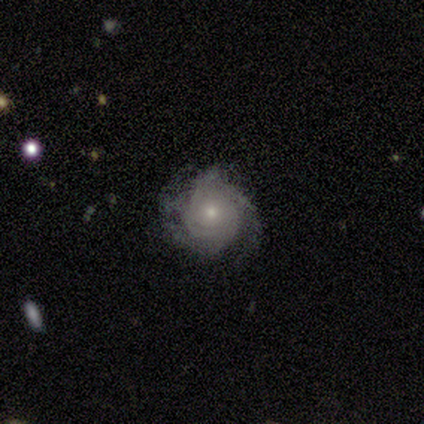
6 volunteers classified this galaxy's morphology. Smooth or featured? 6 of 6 (100%) said featured or disk. Edge-on disk? 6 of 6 (100%) said no. Bar? 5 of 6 (83%) said no. Spiral arms? 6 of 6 (100%) said yes. Spiral winding? 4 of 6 (67%) said tight. Spiral arm count? 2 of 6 (33%, tied with can't tell) said 3. Bulge size? 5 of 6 (83%) said moderate. Merging? 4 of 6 (67%) said none.